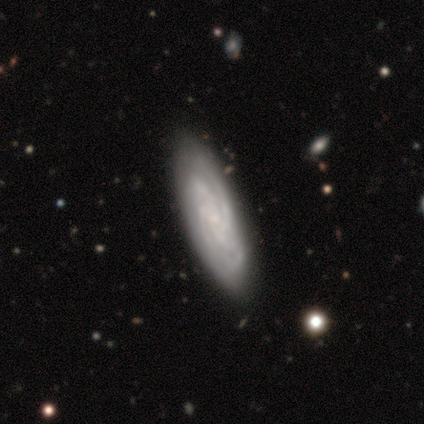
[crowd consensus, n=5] Smooth or featured?
  - featured or disk: 100% *
  - smooth: 0%
  - star or artifact: 0%
Edge-on disk?
  - no: 80% *
  - yes: 20%
Bar?
  - weak: 50% * (tied)
  - no: 50% * (tied)
  - strong: 0%
Spiral arms?
  - yes: 100% *
  - no: 0%
Spiral winding?
  - tight: 100% *
  - medium: 0%
  - loose: 0%
Spiral arm count?
  - 4: 50% *
  - 2: 25%
  - can't tell: 25%
  - 1: 0%
  - 3: 0%
  - more than 4: 0%
Bulge size?
  - small: 100% *
  - dominant: 0%
  - large: 0%
  - moderate: 0%
  - none: 0%
Merging?
  - none: 60% *
  - minor disturbance: 40%
  - major disturbance: 0%
  - merger: 0%